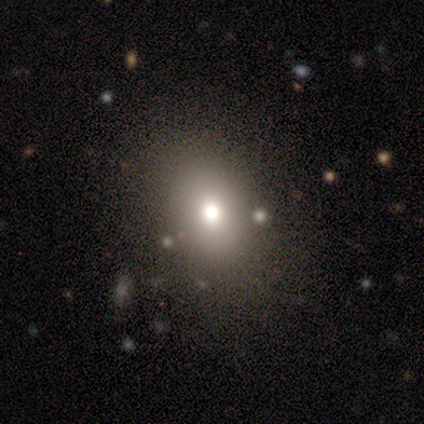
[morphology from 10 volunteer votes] smooth-or-featured: smooth: 90% | star or artifact: 10% | featured or disk: 0%
  how-rounded: in between: 67% | round: 33% | cigar-shaped: 0%
  merging: none: 56% | minor disturbance: 0% | major disturbance: 0% | merger: 0%